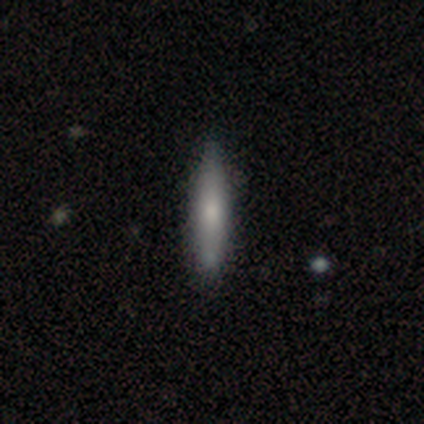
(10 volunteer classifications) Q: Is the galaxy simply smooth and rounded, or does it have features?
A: smooth — 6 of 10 (60%).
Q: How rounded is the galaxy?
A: cigar-shaped — 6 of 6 (100%).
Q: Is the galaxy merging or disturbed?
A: none — 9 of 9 (100%).